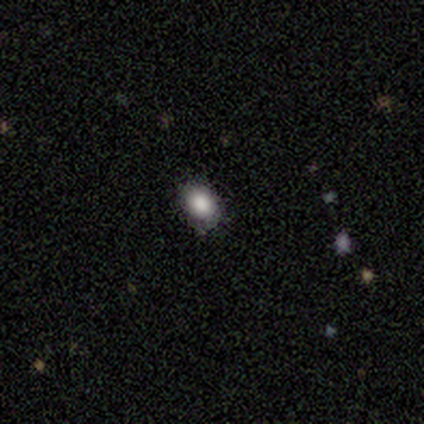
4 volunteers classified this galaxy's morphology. Smooth or featured? 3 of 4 (75%) said smooth. How rounded? 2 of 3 (67%) said round. Merging? 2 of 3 (67%) said none.